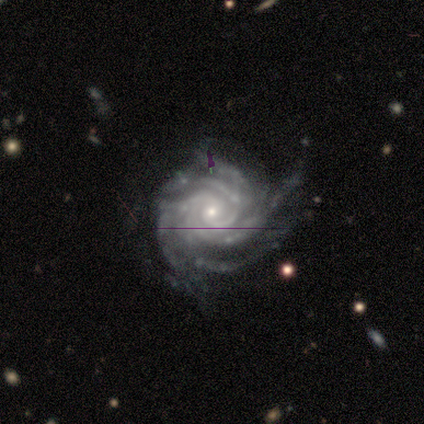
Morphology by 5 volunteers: smooth-or-featured: featured or disk: 80% | star or artifact: 20% | smooth: 0%
  disk-edge-on: no: 100% | yes: 0%
    bar: no: 100% | strong: 0% | weak: 0%
    has-spiral-arms: yes: 100% | no: 0%
      spiral-winding: tight: 50% (tied) | medium: 50% (tied) | loose: 0%
      spiral-arm-count: can't tell: 50% | 2: 25% | more than 4: 25% | 1: 0% | 3: 0% | 4: 0%
    bulge-size: moderate: 75% | small: 25% | dominant: 0% | large: 0% | none: 0%
  merging: none: 100% | minor disturbance: 0% | major disturbance: 0% | merger: 0%